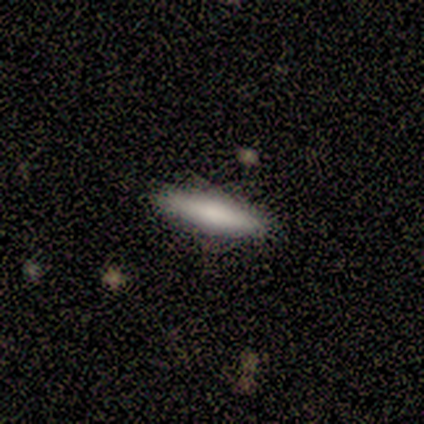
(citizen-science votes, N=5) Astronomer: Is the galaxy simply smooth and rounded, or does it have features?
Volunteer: smooth — 80%.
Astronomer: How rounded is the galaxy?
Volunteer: cigar-shaped — 75%.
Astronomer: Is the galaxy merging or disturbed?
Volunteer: none — 80%.